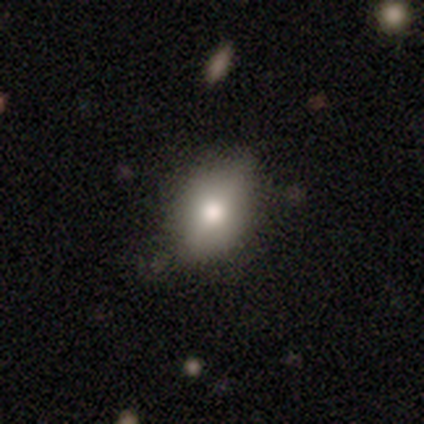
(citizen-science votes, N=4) Smooth or featured: smooth — 75% (featured or disk — 25%)
How rounded: in between — 100%
Merging: none — 75% (minor disturbance — 25%)